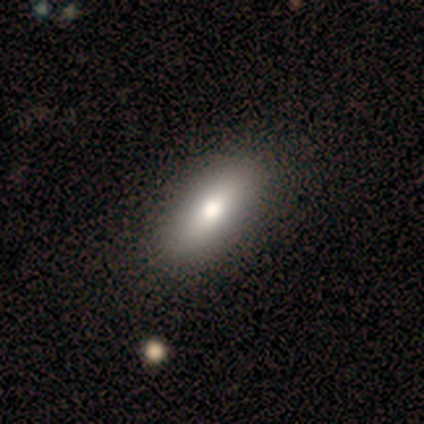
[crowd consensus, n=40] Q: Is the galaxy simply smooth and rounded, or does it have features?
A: smooth — 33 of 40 (82%).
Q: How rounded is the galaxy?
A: in between — 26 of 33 (79%).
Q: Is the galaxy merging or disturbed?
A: none — 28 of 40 (70%).